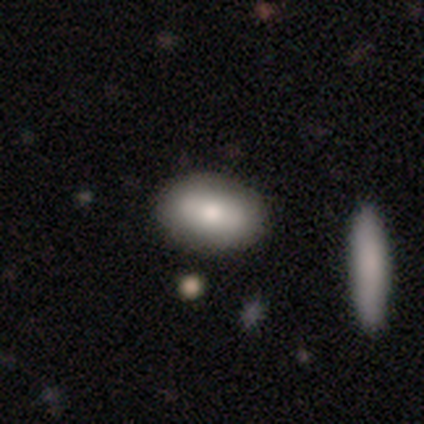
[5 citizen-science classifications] Overall: smooth (40%, tied with featured or disk). How rounded: in between (100%). Merging: none (75%).